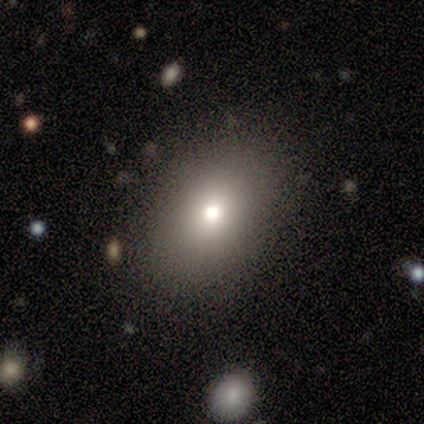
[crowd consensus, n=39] A smooth galaxy with no disk features (82%) that is in between round and cigar-shaped (69%).

Vote fractions:
- Smooth or featured? smooth: 82% / featured or disk: 10% / star or artifact: 8%
- How rounded? in between: 69% / round: 28% / cigar-shaped: 3%
- Merging? none: 72% / minor disturbance: 22% / major disturbance: 6% / merger: 0%